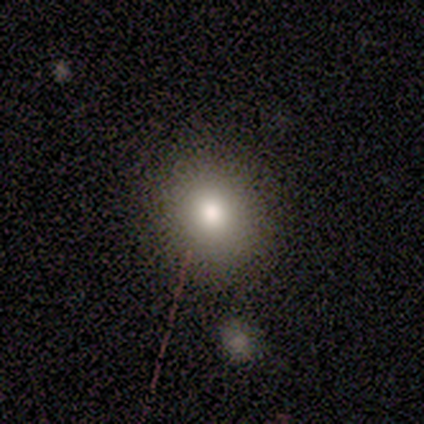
Volunteers were most divided on "smooth or featured": smooth: 80%, star or artifact: 20%, featured or disk: 0%. More confident: how rounded — round (100%); merging — none (100%).